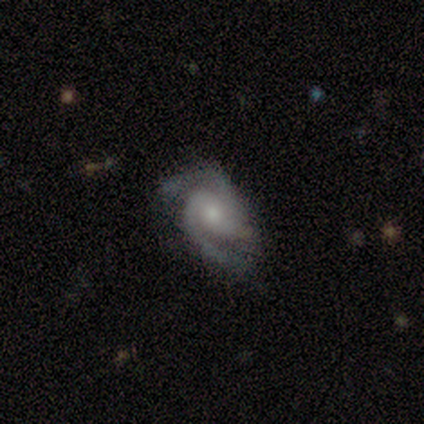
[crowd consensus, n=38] smooth-or-featured: featured or disk: 92% | smooth: 5% | star or artifact: 3%
  disk-edge-on: no: 100% | yes: 0%
    bar: weak: 43% (tied) | no: 43% (tied) | strong: 14%
    has-spiral-arms: yes: 97% | no: 3%
      spiral-winding: medium: 68% | tight: 21% | loose: 12%
      spiral-arm-count: 2: 85% | 3: 15% | 1: 0% | 4: 0% | more than 4: 0% | can't tell: 0%
    bulge-size: moderate: 49% (tied) | small: 49% (tied) | large: 3% | dominant: 0% | none: 0%
  merging: none: 59% | minor disturbance: 30% | major disturbance: 8% | merger: 3%